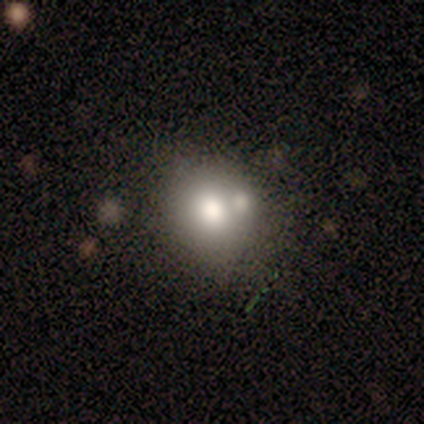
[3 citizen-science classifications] smooth 67%, star or artifact 33%, featured or disk 0%. Down the decision tree: how rounded — round (100%); merging — none (50%, tied with merger).